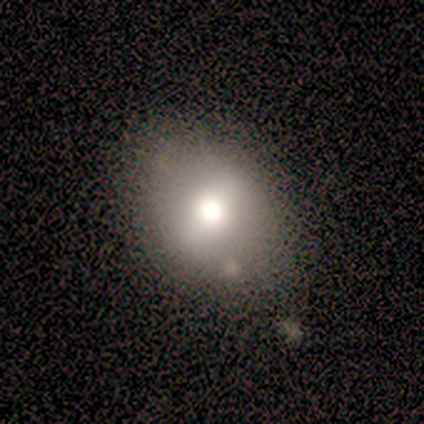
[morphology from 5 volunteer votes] A smooth galaxy with no disk features (60%) that is in between round and cigar-shaped (100%). Merging: none (33%, tied with minor disturbance and merger).